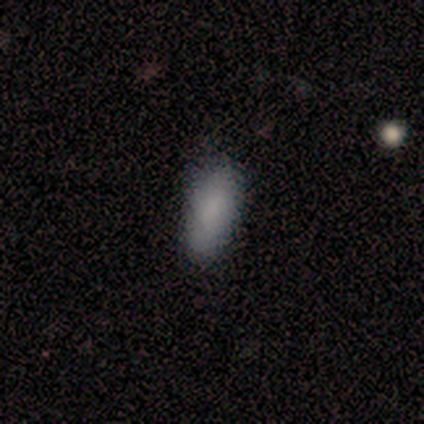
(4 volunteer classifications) This appears to be a smooth galaxy with no disk features (100%) that is in between round and cigar-shaped (50%, tied with cigar-shaped). Merging: none (75%).